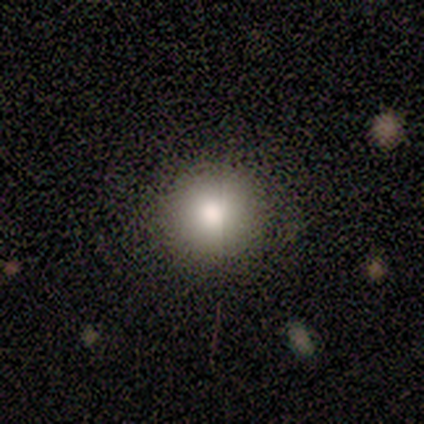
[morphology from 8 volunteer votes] Q: Smooth or featured?
A: smooth (100%)
Q: How rounded?
A: round (100%)
Q: Merging?
A: none (50%); tied with: minor disturbance (50%)